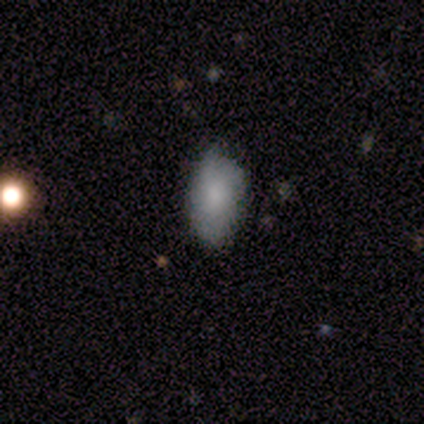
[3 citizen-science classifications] smooth-or-featured: smooth: 67% | featured or disk: 33% | star or artifact: 0%
  how-rounded: in between: 100% | round: 0% | cigar-shaped: 0%
  merging: none: 67% | minor disturbance: 33% | major disturbance: 0% | merger: 0%